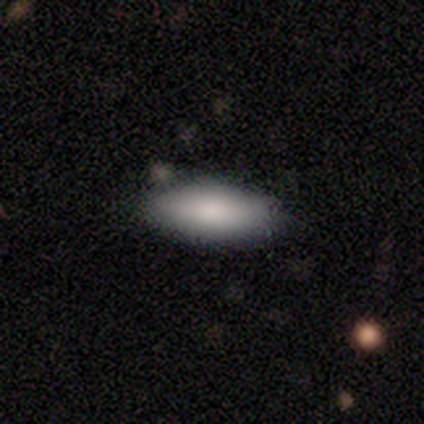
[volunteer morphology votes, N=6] Smooth or featured? smooth (100%)
How rounded? in between (83%)
Merging? none (100%)